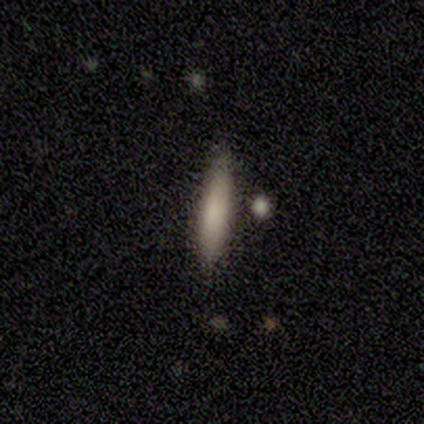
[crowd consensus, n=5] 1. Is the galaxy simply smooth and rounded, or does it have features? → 60% smooth, 40% featured or disk, 0% star or artifact.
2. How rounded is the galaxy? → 100% cigar-shaped, 0% round, 0% in between.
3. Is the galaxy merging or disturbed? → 80% none, 20% major disturbance, 0% minor disturbance, 0% merger.